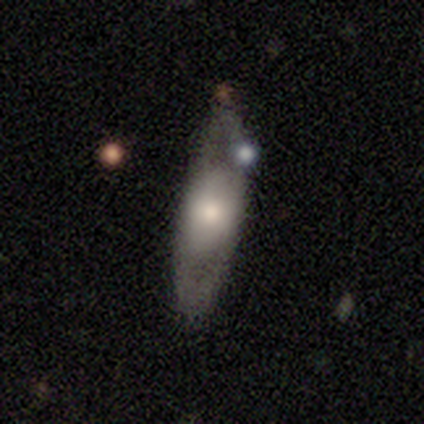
Smooth or featured?
  - featured or disk: 56% *
  - smooth: 33%
  - star or artifact: 11%
Edge-on disk?
  - no: 80% *
  - yes: 20%
Bar?
  - no: 75% *
  - weak: 25%
  - strong: 0%
Spiral arms?
  - no: 75% *
  - yes: 25%
Bulge size?
  - moderate: 75% *
  - large: 25%
  - dominant: 0%
  - small: 0%
  - none: 0%
Merging?
  - none: 62% *
  - minor disturbance: 38%
  - major disturbance: 0%
  - merger: 0%